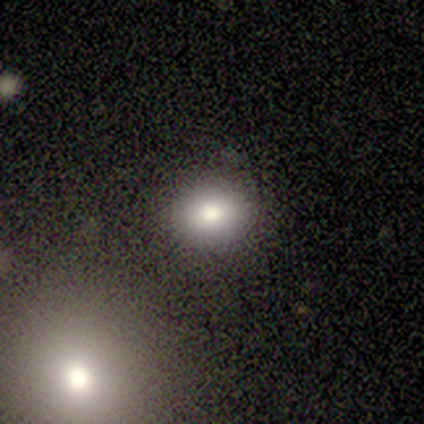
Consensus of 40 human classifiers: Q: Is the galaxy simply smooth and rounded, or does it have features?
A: smooth — 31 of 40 (78%).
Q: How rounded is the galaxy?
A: round — 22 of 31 (71%).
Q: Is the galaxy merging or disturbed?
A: none — 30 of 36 (83%).